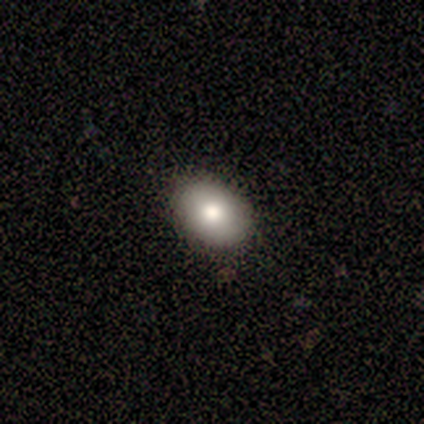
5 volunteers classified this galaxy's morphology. Overall: smooth (100%). How rounded: in between (80%). Merging: none (100%).